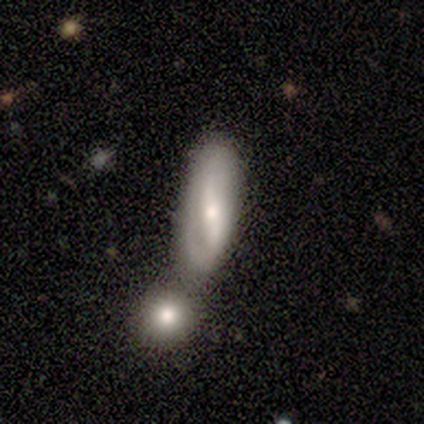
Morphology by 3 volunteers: This appears to be a smooth galaxy with no disk features (67%) that is in between round and cigar-shaped (50%, tied with cigar-shaped). Merging: minor disturbance (100%).